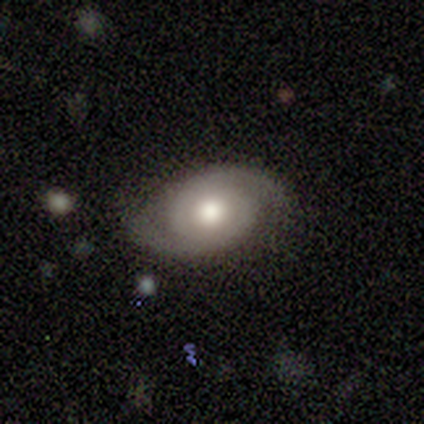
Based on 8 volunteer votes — featured or disk 88%, smooth 12%, star or artifact 0%. Down the decision tree: edge-on disk — no (100%); bar — no (86%); spiral arms — yes (100%); spiral arm count — 2 (86%); spiral winding — tight (57%); bulge size — moderate (71%); merging — none (88%).